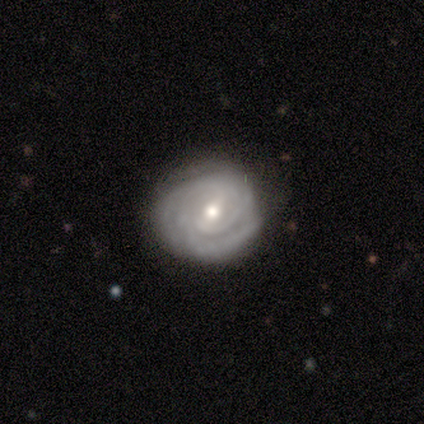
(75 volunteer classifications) Morphology: type=featured or disk (81%); edge-on=no (100%); bar=weak (57%); spiral arms=yes (97%); winding=tight (81%); arm count=2 (36%); bulge=moderate (82%); merging=none (58%).